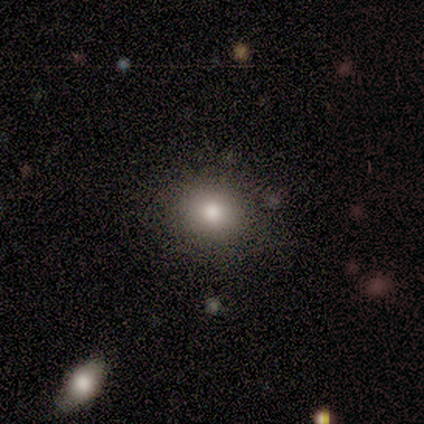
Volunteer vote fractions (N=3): A smooth galaxy with no disk features (100%) that is round (100%).

Vote fractions:
- Smooth or featured? smooth: 100% / featured or disk: 0% / star or artifact: 0%
- How rounded? round: 100% / in between: 0% / cigar-shaped: 0%
- Merging? none: 67% / minor disturbance: 33% / major disturbance: 0% / merger: 0%